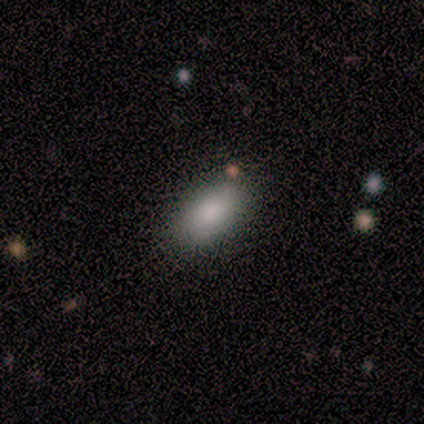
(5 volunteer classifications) Q: Smooth or featured?
A: smooth (100%)
Q: How rounded?
A: in between (80%); runner-up: cigar-shaped (20%)
Q: Merging?
A: none (100%)